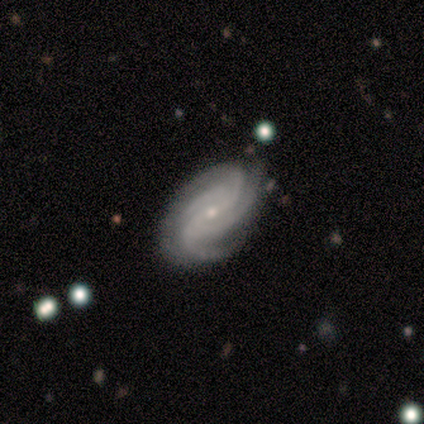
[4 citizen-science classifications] A featured or disk galaxy (100%) with no bar (75%), 4 (75%) tight (75%) spiral arms (100%) and a small central bulge (75%). Merging: none (100%).